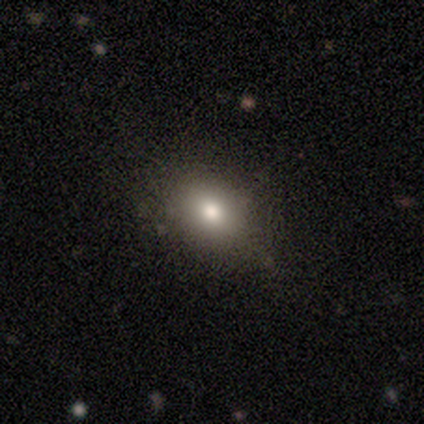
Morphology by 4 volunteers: Overall: smooth (100%). How rounded: in between (100%). Merging: none (75%).